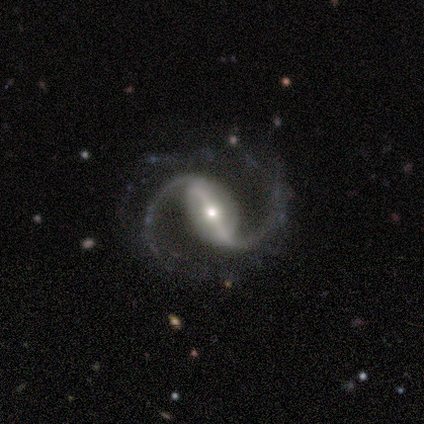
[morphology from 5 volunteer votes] A featured or disk galaxy (80%) with a strong bar (75%), 2 (100%) medium (50%, tied with loose) spiral arms (100%) and a moderate central bulge (50%, tied with small).

Vote fractions:
- Smooth or featured? featured or disk: 80% / smooth: 20% / star or artifact: 0%
- Edge-on disk? no: 100% / yes: 0%
- Bar? strong: 75% / weak: 25% / no: 0%
- Spiral arms? yes: 100% / no: 0%
- Spiral winding? medium: 50% (tied) / loose: 50% (tied) / tight: 0%
- Spiral arm count? 2: 100% / 1: 0% / 3: 0% / 4: 0% / more than 4: 0% / can't tell: 0%
- Bulge size? moderate: 50% (tied) / small: 50% (tied) / dominant: 0% / large: 0% / none: 0%
- Merging? none: 100% / minor disturbance: 0% / major disturbance: 0% / merger: 0%